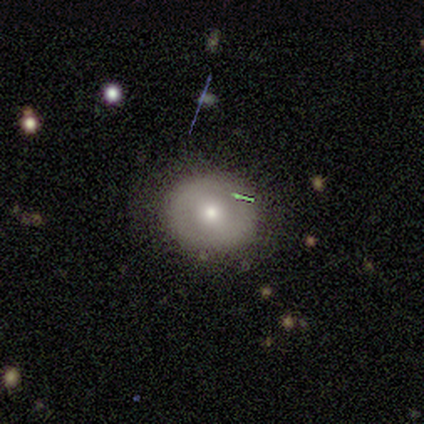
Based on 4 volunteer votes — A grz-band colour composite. It shows a featured or disk galaxy (75%) with no bar (67%), no spiral arms (67%) and a moderate central bulge (67%). Merging: none (75%).